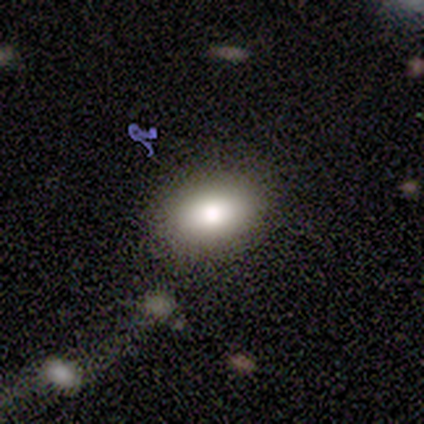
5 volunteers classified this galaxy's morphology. smooth-or-featured: smooth: 60% | featured or disk: 40% | star or artifact: 0%
  how-rounded: in between: 100% | round: 0% | cigar-shaped: 0%
  merging: none: 60% | minor disturbance: 20% | merger: 20% | major disturbance: 0%